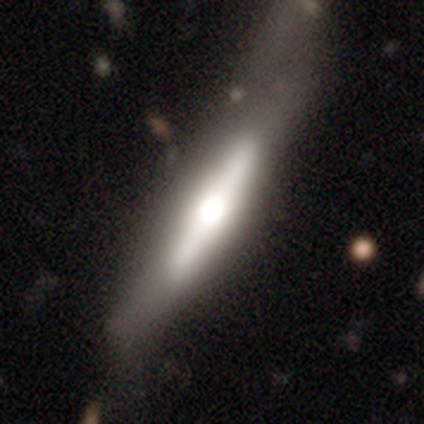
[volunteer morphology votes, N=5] A featured or disk galaxy (100%) viewed edge-on (60%) with a rounded central bulge (67%).

Vote fractions:
- Smooth or featured? featured or disk: 100% / smooth: 0% / star or artifact: 0%
- Edge-on disk? yes: 60% / no: 40%
- Edge-on bulge? rounded: 67% / boxy: 33% / none: 0%
- Merging? none: 40% (tied) / minor disturbance: 40% (tied) / major disturbance: 20% / merger: 0%